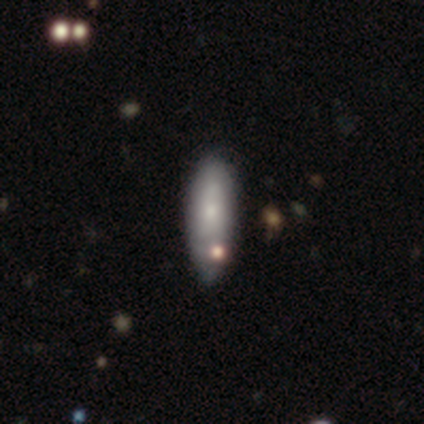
A smooth galaxy with no disk features (65%) that is in between round and cigar-shaped (65%). Merging: none (36%).